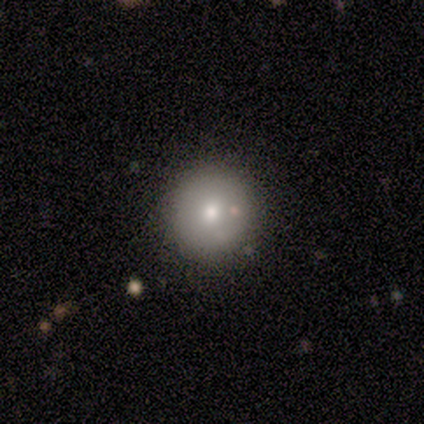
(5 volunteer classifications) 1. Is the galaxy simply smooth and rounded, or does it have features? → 60% featured or disk, 40% smooth, 0% star or artifact.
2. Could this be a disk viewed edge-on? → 100% no, 0% yes.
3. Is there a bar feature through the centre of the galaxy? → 100% no, 0% strong, 0% weak.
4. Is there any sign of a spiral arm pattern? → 100% no, 0% yes.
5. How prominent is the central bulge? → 100% moderate, 0% dominant, 0% large, 0% small, 0% none.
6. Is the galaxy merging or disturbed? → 80% none, 20% merger, 0% minor disturbance, 0% major disturbance.